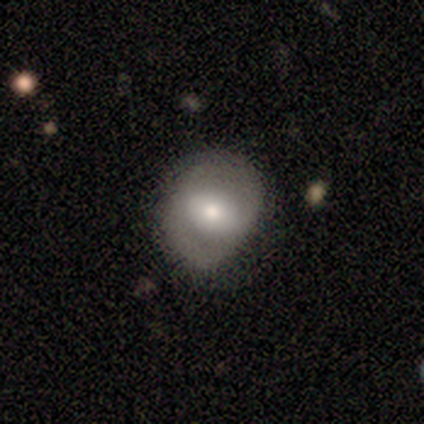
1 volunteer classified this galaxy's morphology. A featured or disk galaxy (100%) with a strong bar (100%), 2 (100%) tight (100%) spiral arms (100%) and a large central bulge (100%).

Vote fractions:
- Smooth or featured? featured or disk: 100% / smooth: 0% / star or artifact: 0%
- Edge-on disk? no: 100% / yes: 0%
- Bar? strong: 100% / weak: 0% / no: 0%
- Spiral arms? yes: 100% / no: 0%
- Spiral winding? tight: 100% / medium: 0% / loose: 0%
- Spiral arm count? 2: 100% / 1: 0% / 3: 0% / 4: 0% / more than 4: 0% / can't tell: 0%
- Bulge size? large: 100% / dominant: 0% / moderate: 0% / small: 0% / none: 0%
- Merging? none: 100% / minor disturbance: 0% / major disturbance: 0% / merger: 0%